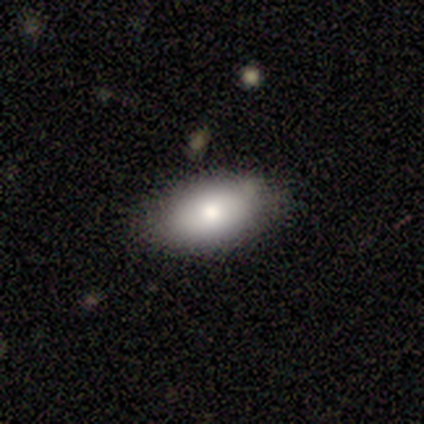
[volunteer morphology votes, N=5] Smooth or featured?
  - smooth: 100% *
  - featured or disk: 0%
  - star or artifact: 0%
How rounded?
  - in between: 80% *
  - cigar-shaped: 20%
  - round: 0%
Merging?
  - none: 80% *
  - minor disturbance: 20%
  - major disturbance: 0%
  - merger: 0%